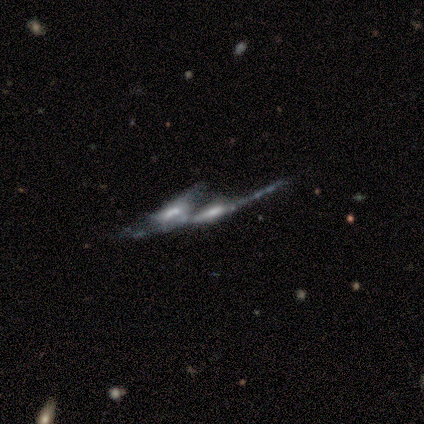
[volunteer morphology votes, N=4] type=featured or disk (75%); edge-on=no (67%); bar=no (100%); spiral arms=yes (50%, tied with no); winding=medium (100%); arm count=can't tell (100%); bulge=moderate (100%); merging=merger (100%).